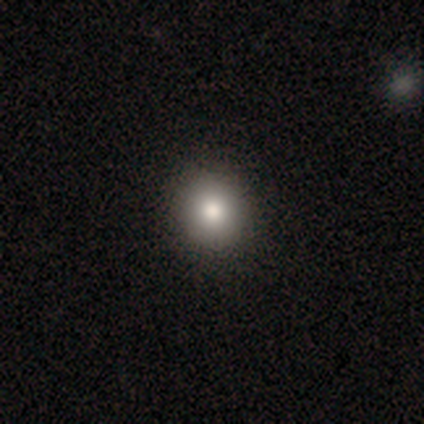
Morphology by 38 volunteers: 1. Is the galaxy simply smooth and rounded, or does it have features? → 89% smooth, 8% featured or disk, 3% star or artifact.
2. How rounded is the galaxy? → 79% round, 21% in between, 0% cigar-shaped.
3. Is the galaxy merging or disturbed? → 65% none, 8% minor disturbance, 3% major disturbance, 0% merger.